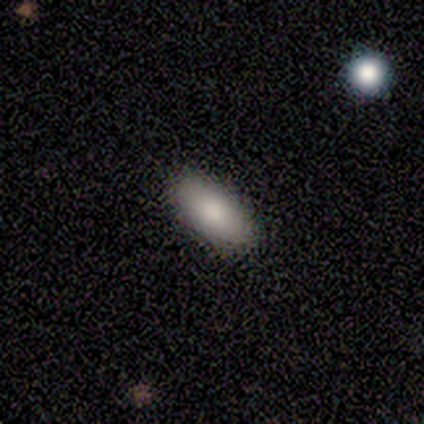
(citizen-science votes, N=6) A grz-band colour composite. It shows a smooth galaxy with no disk features (83%) that is in between round and cigar-shaped (80%). Merging: none (100%).